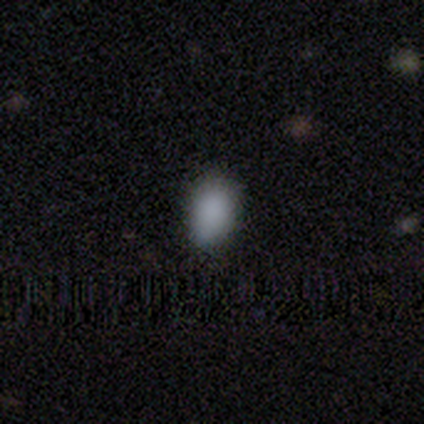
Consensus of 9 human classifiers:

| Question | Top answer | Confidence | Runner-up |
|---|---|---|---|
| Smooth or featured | smooth | 89% | featured or disk (11%) |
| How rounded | in between | 88% | round (12%) |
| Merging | none | 100% | — |